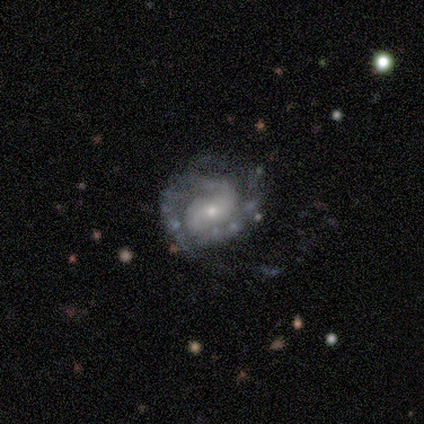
Smooth or featured?
  - featured or disk: 100% *
  - smooth: 0%
  - star or artifact: 0%
Edge-on disk?
  - no: 100% *
  - yes: 0%
Bar?
  - weak: 80% *
  - no: 20%
  - strong: 0%
Spiral arms?
  - yes: 100% *
  - no: 0%
Spiral winding?
  - tight: 60% *
  - medium: 40%
  - loose: 0%
Spiral arm count?
  - 2: 80% *
  - can't tell: 20%
  - 1: 0%
  - 3: 0%
  - 4: 0%
  - more than 4: 0%
Bulge size?
  - small: 60% *
  - moderate: 40%
  - dominant: 0%
  - large: 0%
  - none: 0%
Merging?
  - none: 40% * (tied)
  - minor disturbance: 40% * (tied)
  - major disturbance: 20%
  - merger: 0%